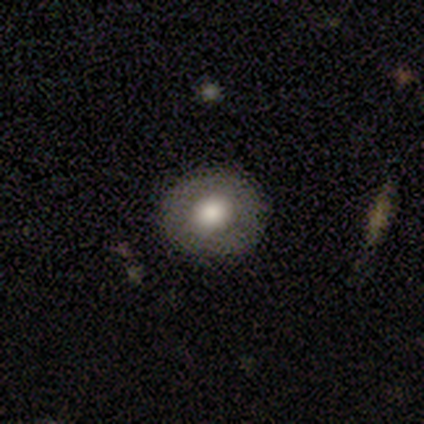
Smooth or featured? smooth (88%)
How rounded? round (71%)
Merging? none (86%)